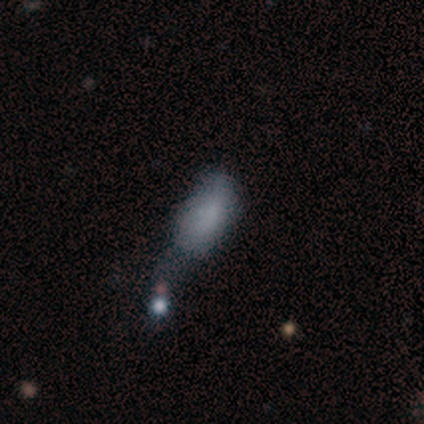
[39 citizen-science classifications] Morphology: type=smooth (67%); roundness=in between (92%); merging=merger (34%).